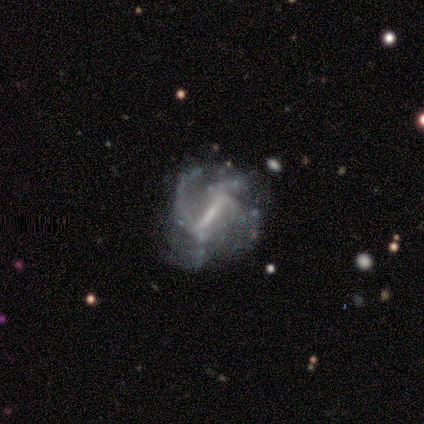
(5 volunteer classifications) Morphology: type=featured or disk (100%); edge-on=no (80%); bar=strong (50%, tied with weak); spiral arms=yes (100%); winding=medium (75%); arm count=4 (50%); bulge=moderate (75%); merging=none (40%, tied with major disturbance).